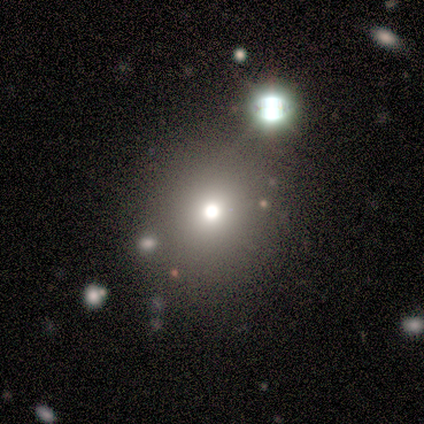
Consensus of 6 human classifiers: This is possibly a smooth galaxy (50%, tied with star or artifact). How rounded: clearly round (100%). Merging: clearly none (100%).